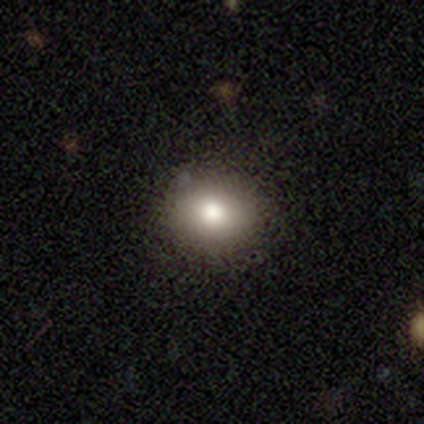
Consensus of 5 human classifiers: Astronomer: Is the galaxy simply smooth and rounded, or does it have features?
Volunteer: smooth — 100%.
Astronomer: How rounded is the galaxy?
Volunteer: round — 60% (runner-up: in between, 40%).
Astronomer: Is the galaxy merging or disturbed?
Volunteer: none — 100%.